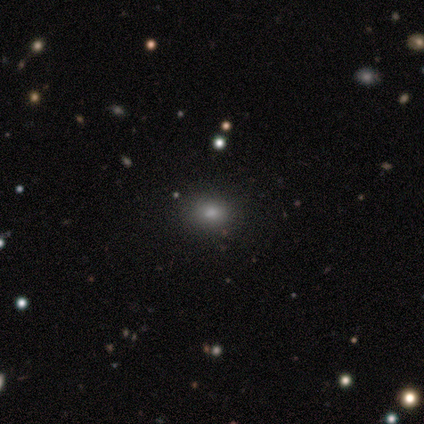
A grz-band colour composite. It shows a smooth galaxy with no disk features (79%) that is in between round and cigar-shaped (60%). Merging: none (97%).